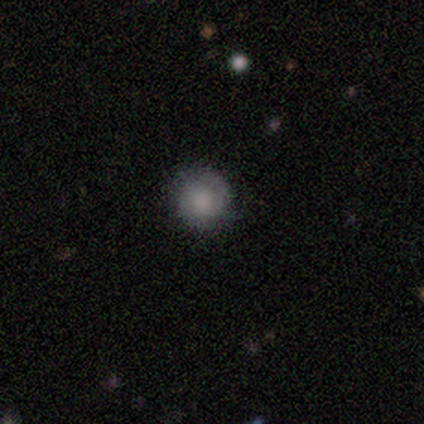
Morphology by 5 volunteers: This appears to be a smooth galaxy with no disk features (80%) that is round (100%). Merging: none (80%).